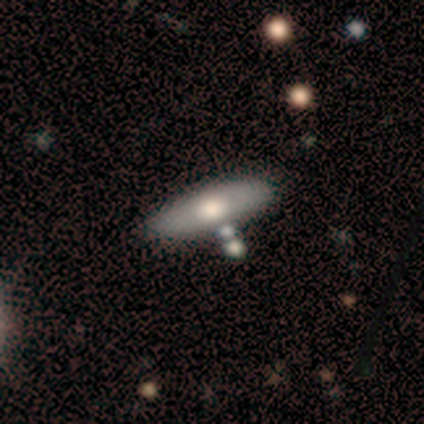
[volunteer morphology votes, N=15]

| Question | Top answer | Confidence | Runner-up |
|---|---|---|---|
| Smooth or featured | featured or disk | 53% | smooth (47%) |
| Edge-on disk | no | 62% | yes (38%) |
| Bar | no | 80% | strong (20%) |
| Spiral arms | no | 80% | yes (20%) |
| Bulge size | large | 60% | moderate (40%) |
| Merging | none | 53% | minor disturbance (20%) |